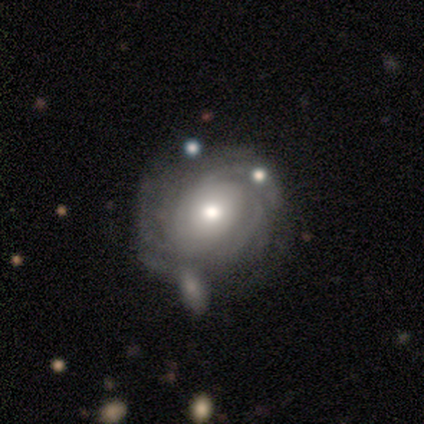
Morphology: type=featured or disk (60%); edge-on=no (100%); bar=no (67%); spiral arms=yes (100%); winding=tight (100%); arm count=can't tell (67%); bulge=moderate (67%); merging=none (100%).